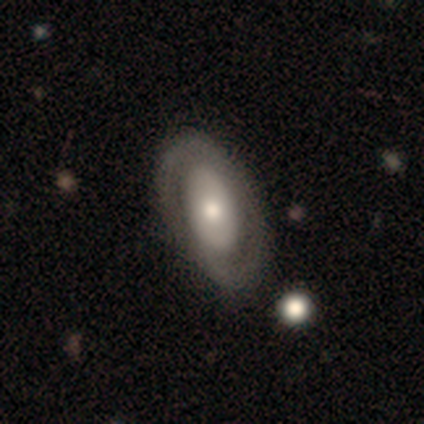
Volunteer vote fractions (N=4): featured or disk 75%, smooth 25%, star or artifact 0%. Down the decision tree: edge-on disk — no (100%); bar — no (100%); spiral arms — yes (100%); spiral arm count — 1 (33%, tied with 2 and can't tell); spiral winding — tight (67%); bulge size — moderate (67%); merging — none (75%).